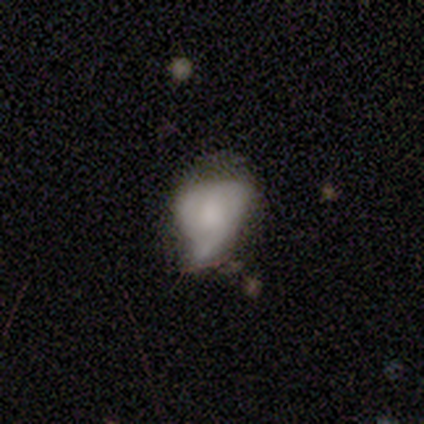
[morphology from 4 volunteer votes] Smooth or featured? smooth (50%, tied with featured or disk)
How rounded? round (50%, tied with in between)
Merging? major disturbance (75%)